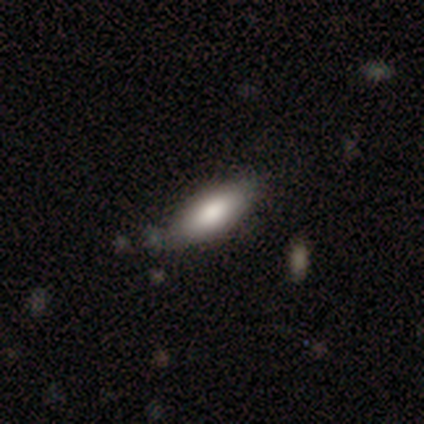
Overall: smooth (92%). How rounded: in between (75%). Merging: none (85%).